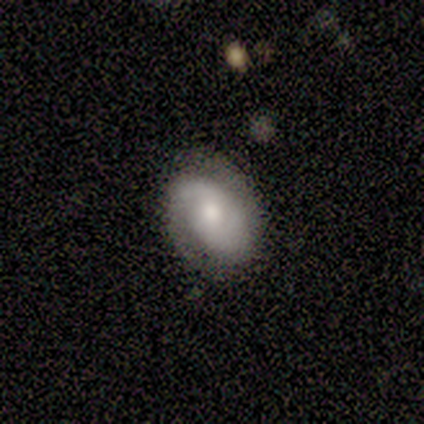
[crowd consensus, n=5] Overall: featured or disk (60%; smooth 40%). Edge-on disk: no (100%). Bar: no (67%; weak 33%). Spiral arms: yes (100%). Spiral arm count: 2 (100%). Spiral winding: tight (67%; medium 33%). Bulge size: small (67%; moderate 33%). Merging: none (80%).